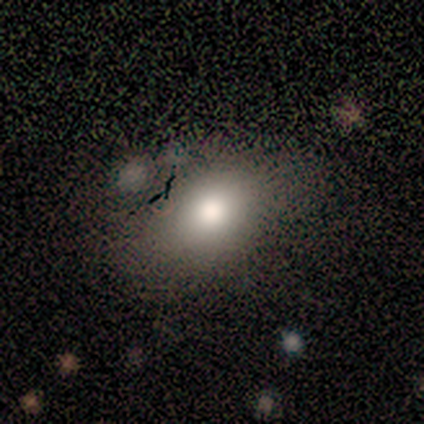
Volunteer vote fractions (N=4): smooth_or_featured: smooth (p=0.50) [tied with: featured or disk p=0.50]
how_rounded: round (p=0.50) [tied with: in between p=0.50]
merging: none (p=0.75) [alt: merger p=0.25]